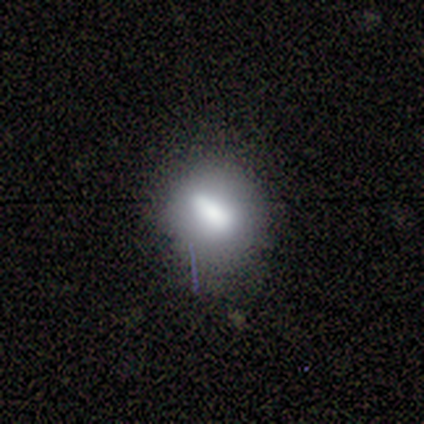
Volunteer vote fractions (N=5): Q: Smooth or featured?
A: smooth (60%); runner-up: featured or disk (20%)
Q: How rounded?
A: in between (67%); runner-up: round (33%)
Q: Merging?
A: none (50%); tied with: minor disturbance (50%)